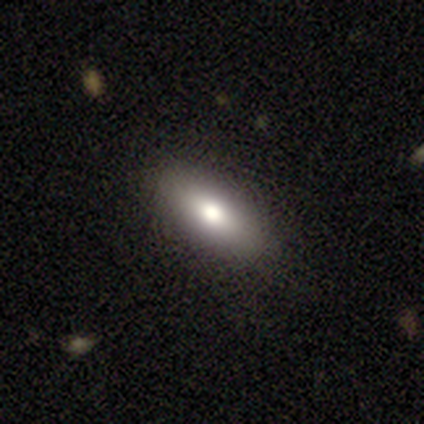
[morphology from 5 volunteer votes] Smooth or featured?
  - featured or disk: 80% *
  - star or artifact: 20%
  - smooth: 0%
Edge-on disk?
  - no: 75% *
  - yes: 25%
Bar?
  - no: 67% *
  - strong: 33%
  - weak: 0%
Spiral arms?
  - no: 100% *
  - yes: 0%
Bulge size?
  - moderate: 67% *
  - large: 33%
  - dominant: 0%
  - small: 0%
  - none: 0%
Merging?
  - none: 100% *
  - minor disturbance: 0%
  - major disturbance: 0%
  - merger: 0%